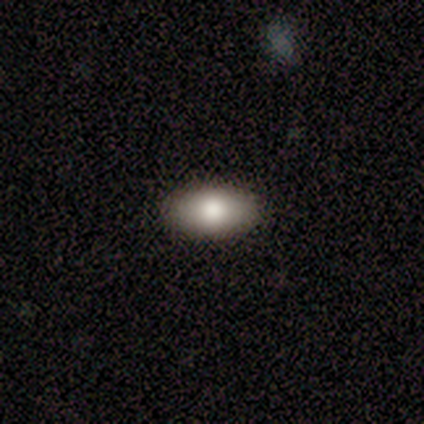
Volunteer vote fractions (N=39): Smooth or featured? smooth (82%)
How rounded? in between (97%)
Merging? none (90%)